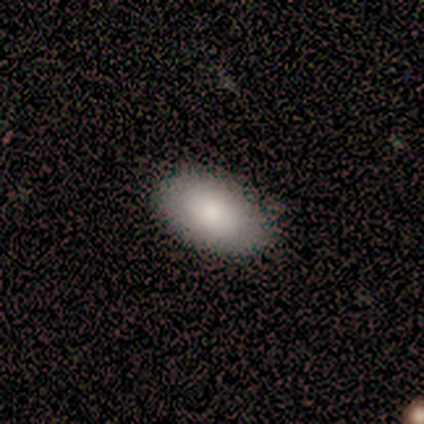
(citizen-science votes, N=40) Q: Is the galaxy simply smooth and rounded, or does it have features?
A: smooth — 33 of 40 (82%).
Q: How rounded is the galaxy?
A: in between — 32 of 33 (97%).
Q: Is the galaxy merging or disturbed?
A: none — 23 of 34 (68%).